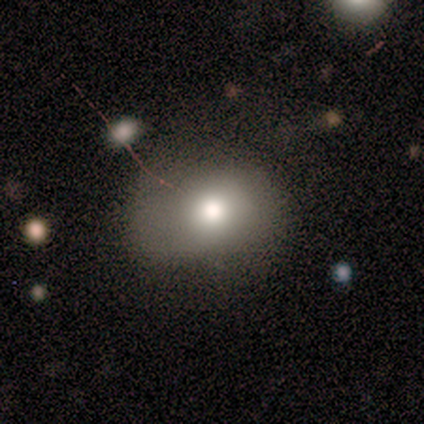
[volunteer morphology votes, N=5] A featured or disk galaxy (60%) with a weak bar (50%, tied with no), no spiral arms (100%) and a large central bulge (50%, tied with moderate). Merging: none (40%, tied with minor disturbance).